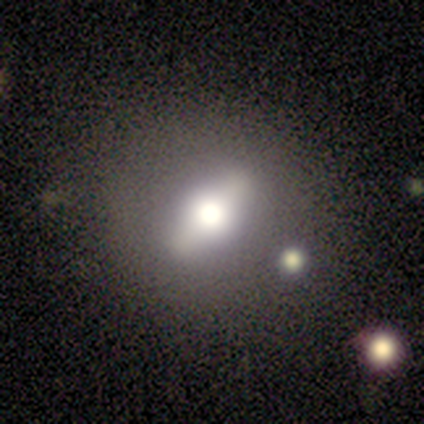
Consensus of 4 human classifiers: Smooth or featured?
  - smooth: 75% *
  - featured or disk: 25%
  - star or artifact: 0%
How rounded?
  - in between: 67% *
  - round: 33%
  - cigar-shaped: 0%
Merging?
  - none: 100% *
  - minor disturbance: 0%
  - major disturbance: 0%
  - merger: 0%